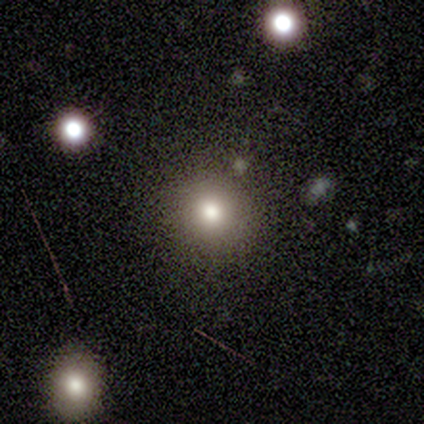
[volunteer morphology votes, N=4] smooth 100%, featured or disk 0%, star or artifact 0%. Down the decision tree: how rounded — round (100%); merging — none (75%).